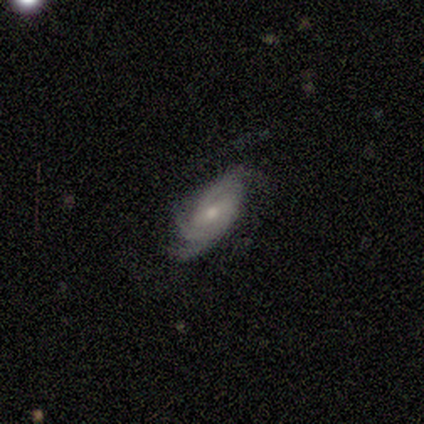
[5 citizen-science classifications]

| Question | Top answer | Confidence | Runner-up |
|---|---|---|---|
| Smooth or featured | featured or disk | 100% | — |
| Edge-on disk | no | 100% | — |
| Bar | no | 60% | weak (40%) |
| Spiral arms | yes | 100% | — |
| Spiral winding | tight | 80% | medium (20%) |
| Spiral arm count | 3 | 60% | can't tell (40%) |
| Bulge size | small | 80% | moderate (20%) |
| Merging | none | 100% | — |